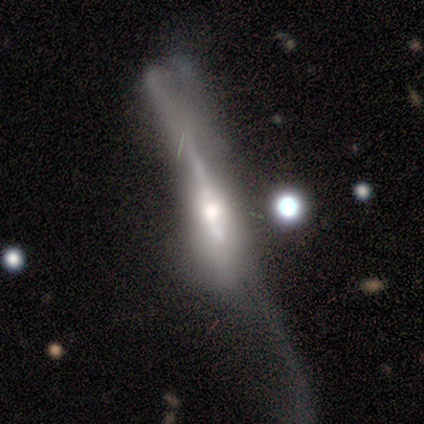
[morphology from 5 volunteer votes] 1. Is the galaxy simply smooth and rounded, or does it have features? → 100% featured or disk, 0% smooth, 0% star or artifact.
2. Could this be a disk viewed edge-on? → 60% yes, 40% no.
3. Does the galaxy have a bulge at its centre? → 67% rounded, 33% none, 0% boxy.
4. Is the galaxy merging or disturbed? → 100% major disturbance, 0% none, 0% minor disturbance, 0% merger.